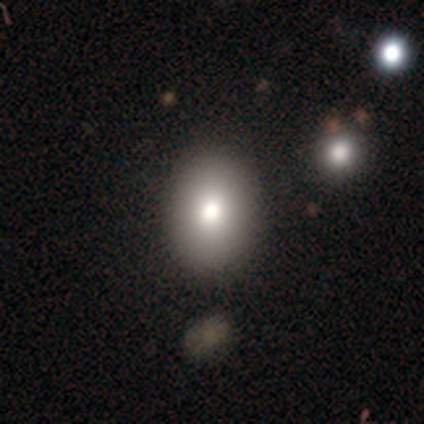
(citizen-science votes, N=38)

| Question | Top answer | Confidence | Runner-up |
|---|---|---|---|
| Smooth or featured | smooth | 84% | featured or disk (11%) |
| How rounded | in between | 88% | round (12%) |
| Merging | none | 94% | minor disturbance (6%) |